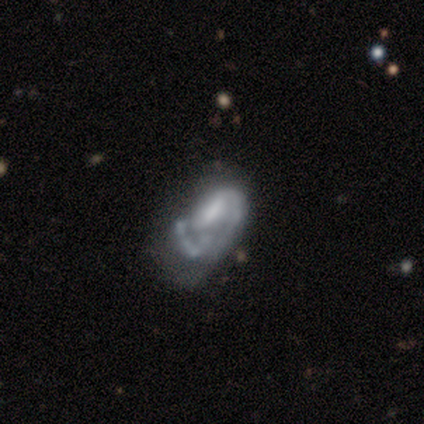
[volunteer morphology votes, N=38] Smooth or featured?
  - featured or disk: 87% *
  - smooth: 13%
  - star or artifact: 0%
Edge-on disk?
  - no: 100% *
  - yes: 0%
Bar?
  - weak: 48% *
  - no: 36%
  - strong: 15%
Spiral arms?
  - yes: 82% *
  - no: 18%
Spiral winding?
  - medium: 52% *
  - loose: 33%
  - tight: 15%
Spiral arm count?
  - 2: 44% *
  - 1: 26%
  - can't tell: 26%
  - 3: 4%
  - 4: 0%
  - more than 4: 0%
Bulge size?
  - small: 36% *
  - none: 27%
  - moderate: 21%
  - large: 15%
  - dominant: 0%
Merging?
  - none: 39% *
  - major disturbance: 26%
  - minor disturbance: 24%
  - merger: 11%